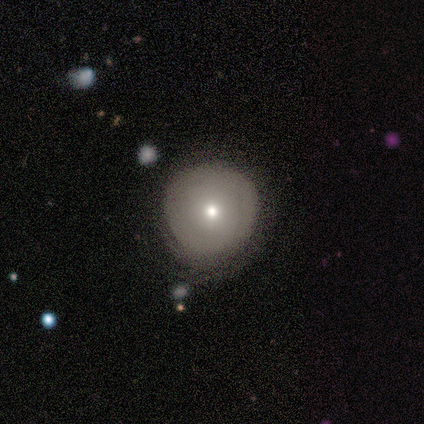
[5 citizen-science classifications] This is likely a smooth galaxy (60%). How rounded: clearly round (100%). Merging: likely none (60%).